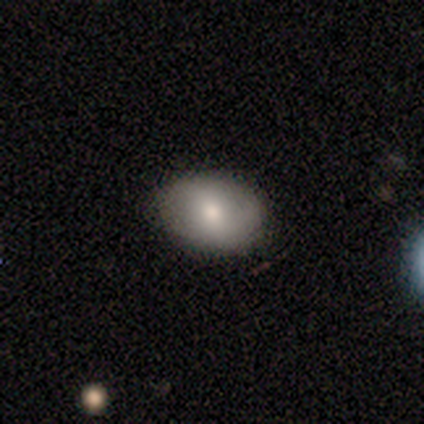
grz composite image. It shows a smooth galaxy with no disk features (60%) that is in between round and cigar-shaped (83%). Merging: none (60%).